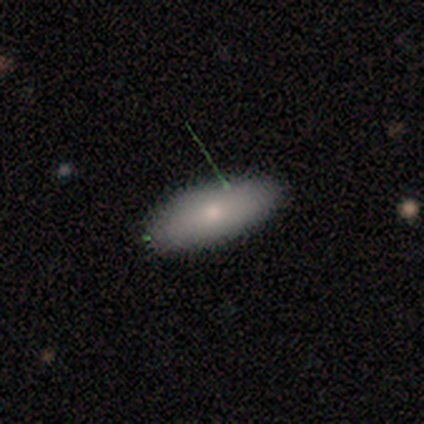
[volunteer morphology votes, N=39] smooth_or_featured: smooth (p=0.74) [alt: featured or disk p=0.23]
how_rounded: in between (p=0.83) [alt: round p=0.10]
merging: none (p=0.95) [alt: minor disturbance p=0.03]